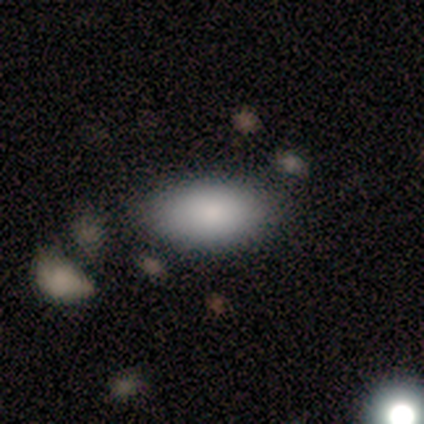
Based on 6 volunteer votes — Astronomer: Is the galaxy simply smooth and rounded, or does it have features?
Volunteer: smooth — 67%.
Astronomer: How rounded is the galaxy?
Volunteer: in between — 100%.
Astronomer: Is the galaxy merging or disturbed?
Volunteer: none — 80%.